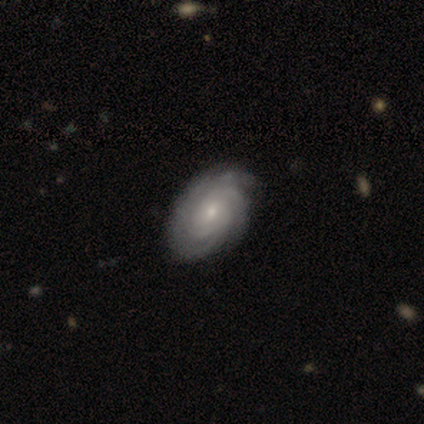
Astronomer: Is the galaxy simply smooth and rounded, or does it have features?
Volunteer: featured or disk — 87%.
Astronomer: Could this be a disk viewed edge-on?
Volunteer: no — 97%.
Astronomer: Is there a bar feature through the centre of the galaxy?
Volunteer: no — 75%.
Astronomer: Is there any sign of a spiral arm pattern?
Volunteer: yes — 100%.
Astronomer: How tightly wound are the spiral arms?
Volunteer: tight — 75%.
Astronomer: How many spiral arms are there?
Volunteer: can't tell — 41% (runner-up: 4, 22%).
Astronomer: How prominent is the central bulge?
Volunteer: small — 62%.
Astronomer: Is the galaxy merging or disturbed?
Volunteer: none — 59%.